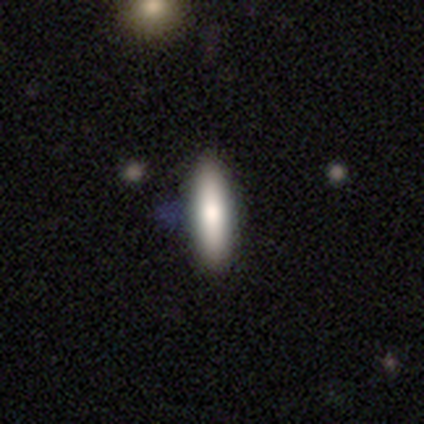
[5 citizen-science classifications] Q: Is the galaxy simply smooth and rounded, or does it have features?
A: smooth — 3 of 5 (60%).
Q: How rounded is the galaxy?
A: cigar-shaped — 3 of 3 (100%).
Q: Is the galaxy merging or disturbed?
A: none — 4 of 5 (80%).